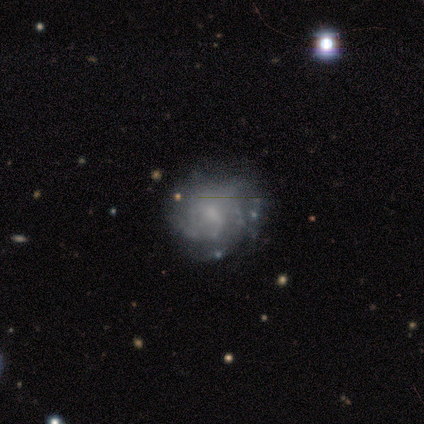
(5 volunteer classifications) This appears to be a featured or disk galaxy (100%) with no bar (60%), tight (67%) spiral arms (60%) and a small central bulge (40%, tied with none). Merging: none (40%, tied with minor disturbance).